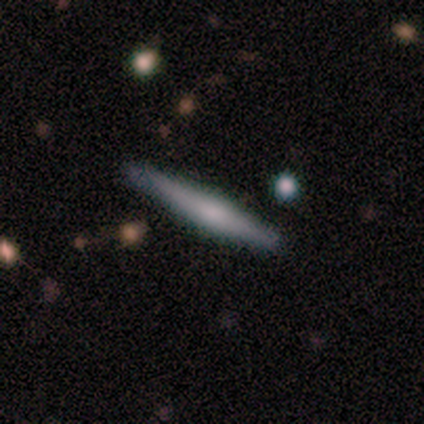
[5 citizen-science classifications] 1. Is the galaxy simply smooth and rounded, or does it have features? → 60% featured or disk, 40% smooth, 0% star or artifact.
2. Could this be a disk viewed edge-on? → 67% yes, 33% no.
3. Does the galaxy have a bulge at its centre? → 50% none (tied), 50% rounded (tied), 0% boxy.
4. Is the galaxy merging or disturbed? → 100% none, 0% minor disturbance, 0% major disturbance, 0% merger.